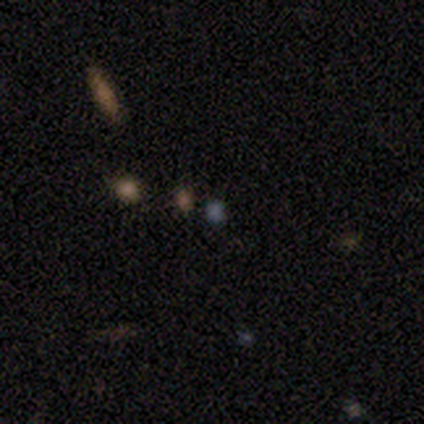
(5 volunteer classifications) smooth_or_featured: smooth (p=0.60) [alt: star or artifact p=0.40]
how_rounded: round (p=0.67) [alt: cigar-shaped p=0.33]
merging: none (p=1.00)